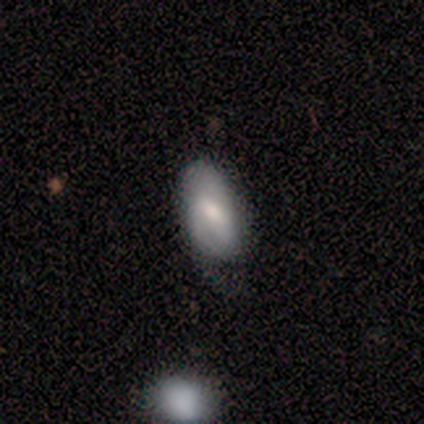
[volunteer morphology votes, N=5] smooth_or_featured: smooth (p=1.00)
how_rounded: in between (p=0.80) [alt: round p=0.20]
merging: minor disturbance (p=0.60) [alt: none p=0.40]